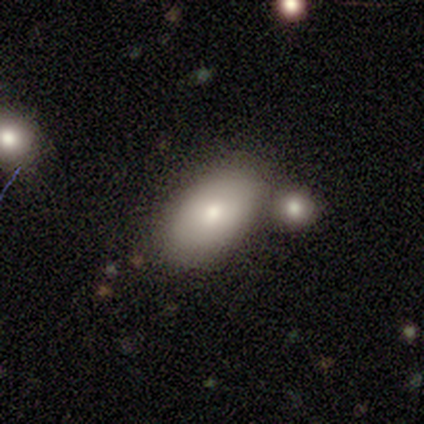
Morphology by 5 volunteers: This is clearly a smooth galaxy (80%). How rounded: clearly in between (100%). Merging: likely none (60%).